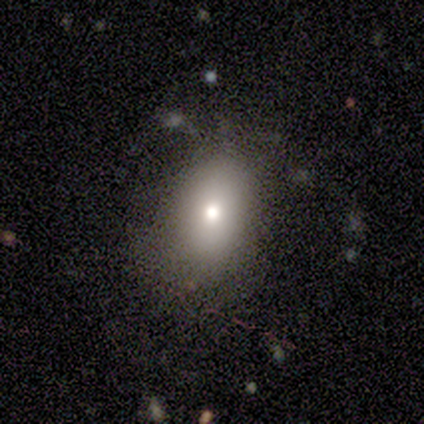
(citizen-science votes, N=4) Q: Smooth or featured?
A: smooth (50%); tied with: star or artifact (50%)
Q: How rounded?
A: in between (100%)
Q: Merging?
A: none (100%)